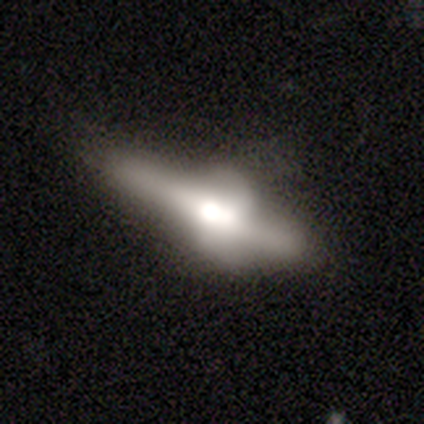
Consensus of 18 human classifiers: Overall: featured or disk (67%; smooth 28%). Edge-on disk: yes (83%). Edge-on bulge: rounded (100%). Merging: major disturbance (35%; minor disturbance 29%).